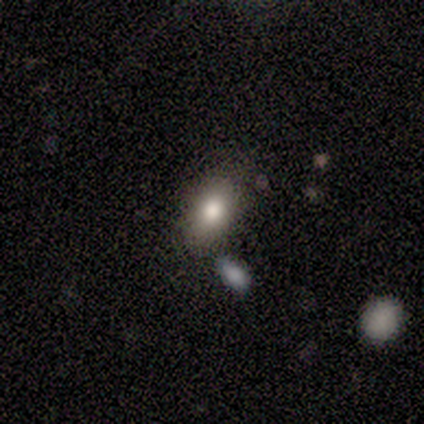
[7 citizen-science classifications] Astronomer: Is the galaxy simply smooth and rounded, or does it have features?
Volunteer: smooth — 86%.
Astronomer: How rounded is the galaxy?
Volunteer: in between — 100%.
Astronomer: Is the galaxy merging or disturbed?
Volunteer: none — 86%.